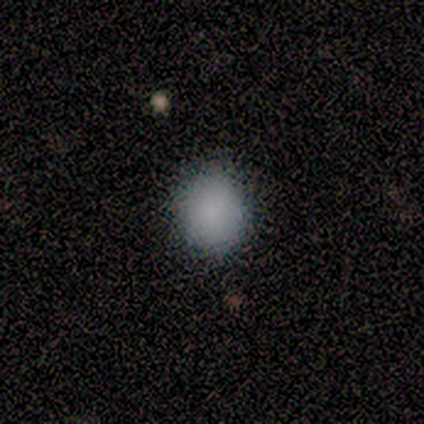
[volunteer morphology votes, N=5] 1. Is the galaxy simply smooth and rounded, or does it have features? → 100% smooth, 0% featured or disk, 0% star or artifact.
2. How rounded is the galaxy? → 60% in between, 40% round, 0% cigar-shaped.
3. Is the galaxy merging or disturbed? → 100% none, 0% minor disturbance, 0% major disturbance, 0% merger.